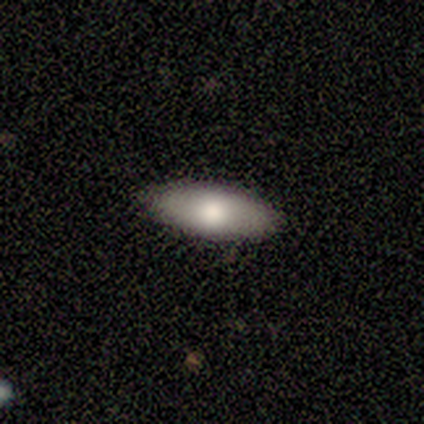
Smooth or featured? 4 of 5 (80%) said smooth. How rounded? 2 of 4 (50%, tied with cigar-shaped) said in between. Merging? 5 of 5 (100%) said none.